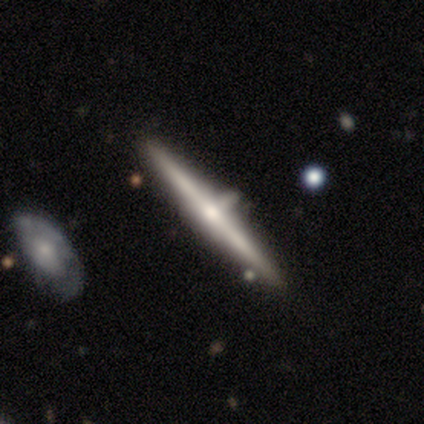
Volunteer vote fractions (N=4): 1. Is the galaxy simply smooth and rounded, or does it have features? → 100% featured or disk, 0% smooth, 0% star or artifact.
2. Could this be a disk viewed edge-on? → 100% yes, 0% no.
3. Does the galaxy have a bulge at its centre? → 100% rounded, 0% boxy, 0% none.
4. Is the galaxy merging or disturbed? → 75% none, 25% minor disturbance, 0% major disturbance, 0% merger.